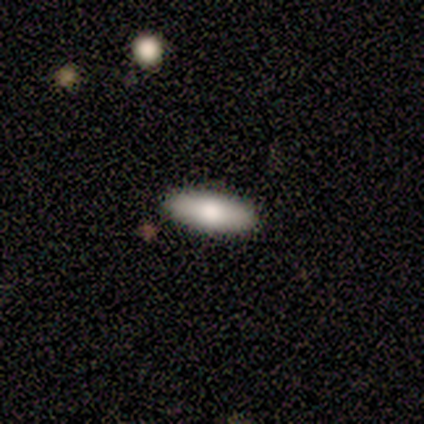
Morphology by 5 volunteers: Smooth or featured? smooth (100%)
How rounded? in between (60%)
Merging? none (100%)